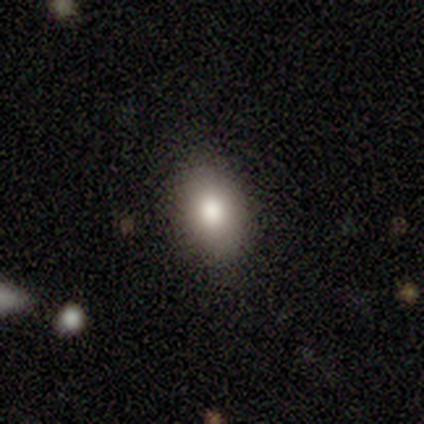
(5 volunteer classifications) Smooth or featured: smooth — 60% (featured or disk — 20%)
How rounded: round — 67% (in between — 33%)
Merging: none — 75% (minor disturbance — 25%)